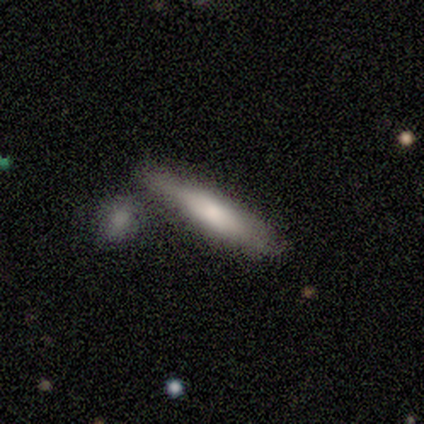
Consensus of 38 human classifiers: A smooth galaxy with no disk features (61%) that is cigar-shaped (78%). Merging: none (50%).